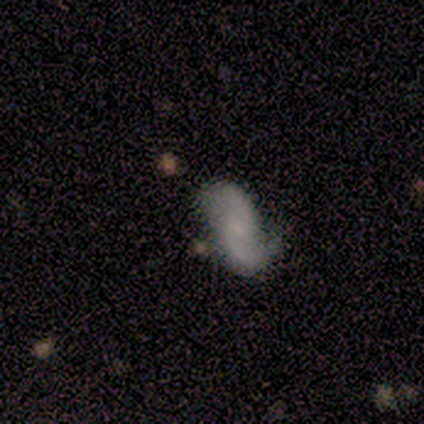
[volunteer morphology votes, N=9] Overall: featured or disk (78%). Edge-on disk: no (86%). Bar: no (83%). Spiral arms: yes (100%). Spiral arm count: 2 (67%). Spiral winding: loose (67%). Bulge size: none (67%; moderate 33%). Merging: none (67%).